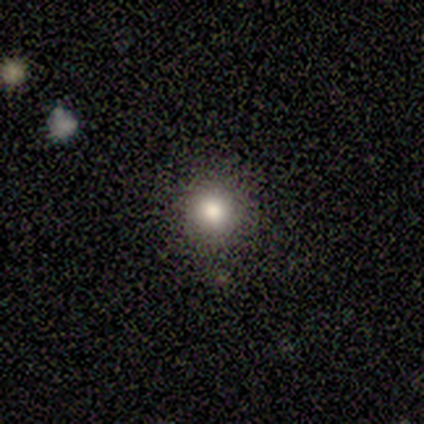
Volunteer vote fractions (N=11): Smooth or featured? smooth (100%)
How rounded? round (100%)
Merging? none (100%)